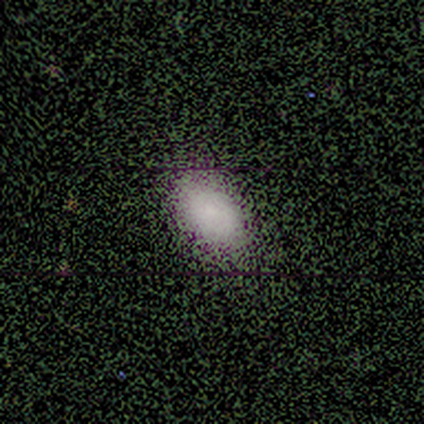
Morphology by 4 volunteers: Q: Smooth or featured?
A: smooth (75%); runner-up: featured or disk (25%)
Q: How rounded?
A: in between (100%)
Q: Merging?
A: none (100%)